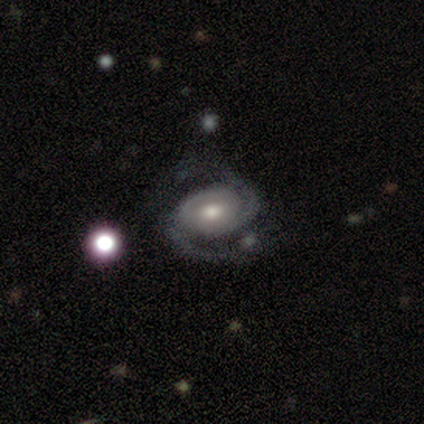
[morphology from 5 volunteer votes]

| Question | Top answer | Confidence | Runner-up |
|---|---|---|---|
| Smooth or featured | featured or disk | 80% | smooth (20%) |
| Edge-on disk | no | 100% | — |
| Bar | weak | 50% | tied: no (50%) |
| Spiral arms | yes | 100% | — |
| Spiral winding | medium | 50% | tight (25%) |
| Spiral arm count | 2 | 75% | 3 (25%) |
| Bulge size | moderate | 100% | — |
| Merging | none | 40% | minor disturbance (20%) |